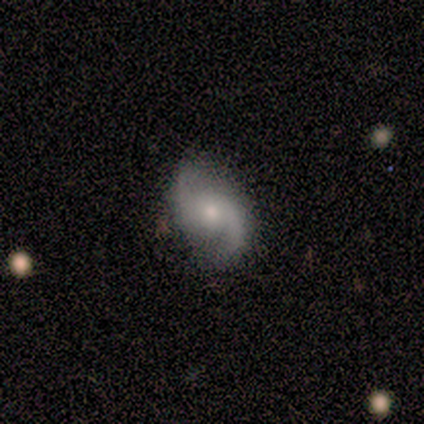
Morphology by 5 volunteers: Smooth or featured? 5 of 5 (100%) said featured or disk. Edge-on disk? 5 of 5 (100%) said no. Bar? 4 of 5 (80%) said no. Spiral arms? 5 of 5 (100%) said yes. Spiral winding? 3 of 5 (60%) said medium. Spiral arm count? 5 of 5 (100%) said 2. Bulge size? 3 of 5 (60%) said small. Merging? 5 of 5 (100%) said none.